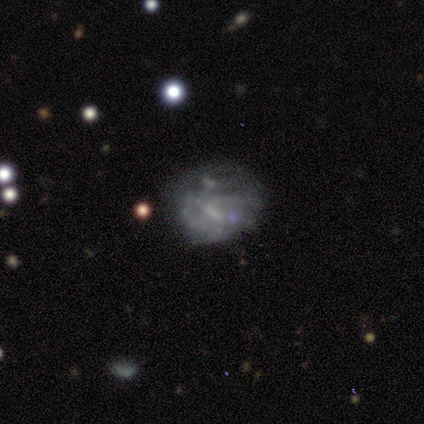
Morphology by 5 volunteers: Smooth or featured?
  - featured or disk: 100% *
  - smooth: 0%
  - star or artifact: 0%
Edge-on disk?
  - no: 100% *
  - yes: 0%
Bar?
  - no: 80% *
  - weak: 20%
  - strong: 0%
Spiral arms?
  - no: 80% *
  - yes: 20%
Bulge size?
  - none: 80% *
  - moderate: 20%
  - dominant: 0%
  - large: 0%
  - small: 0%
Merging?
  - none: 40% * (tied)
  - minor disturbance: 40% * (tied)
  - major disturbance: 20%
  - merger: 0%